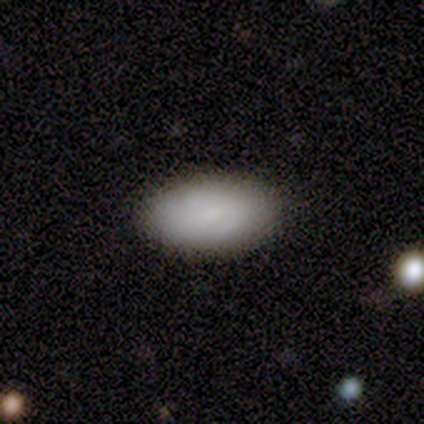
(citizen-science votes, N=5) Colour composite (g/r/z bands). It shows a smooth galaxy with no disk features (60%) that is in between round and cigar-shaped (100%). Merging: none (60%).